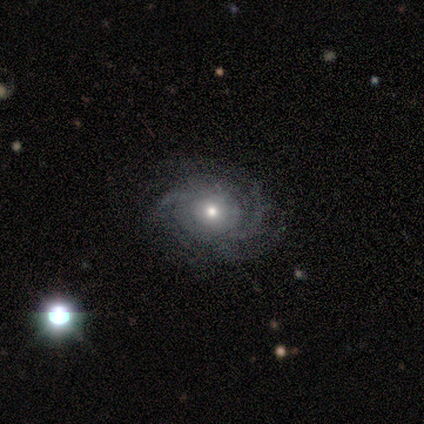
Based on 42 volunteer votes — Overall: featured or disk (88%). Edge-on disk: no (97%). Bar: no (92%). Spiral arms: yes (97%). Spiral arm count: can't tell (40%; 3 23%). Spiral winding: tight (60%; medium 26%). Bulge size: small (53%; moderate 39%). Merging: none (65%).